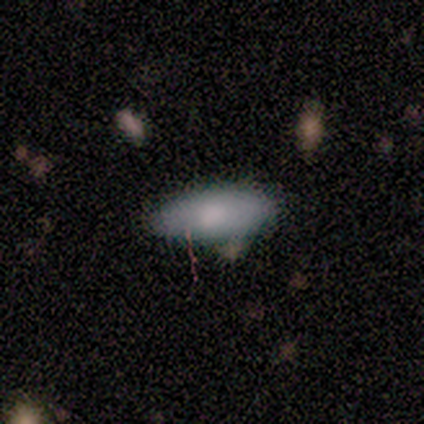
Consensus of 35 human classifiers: Volunteers were most divided on "how rounded": in between: 74%, cigar-shaped: 22%, round: 4%. More confident: smooth or featured — smooth (77%); merging — none (76%).